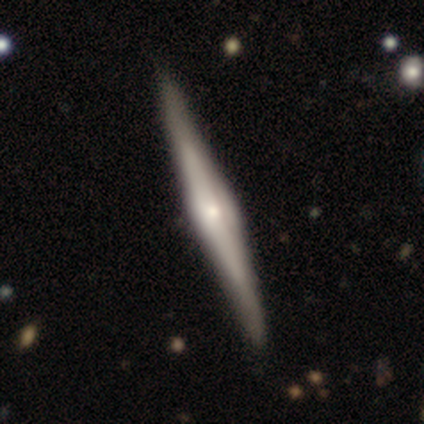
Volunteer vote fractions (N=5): Smooth or featured: featured or disk — 60% (smooth — 40%)
Edge-on disk: yes — 100%
Edge-on bulge: rounded — 100%
Merging: none — 100%